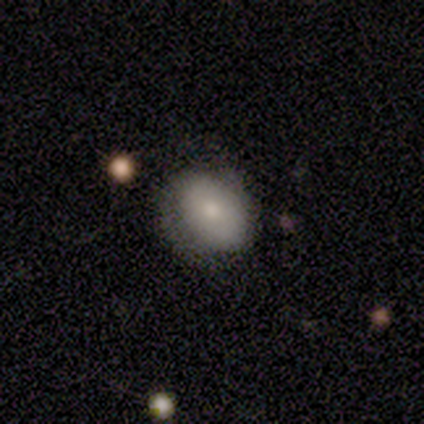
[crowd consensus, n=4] smooth-or-featured: smooth: 75% | featured or disk: 25% | star or artifact: 0%
  how-rounded: in between: 67% | round: 33% | cigar-shaped: 0%
  merging: none: 50% (tied) | minor disturbance: 50% (tied) | major disturbance: 0% | merger: 0%